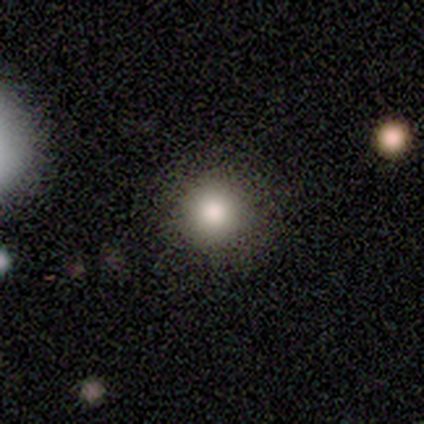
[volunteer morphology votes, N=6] smooth 83%, featured or disk 17%, star or artifact 0%. Down the decision tree: how rounded — round (100%); merging — none (100%).